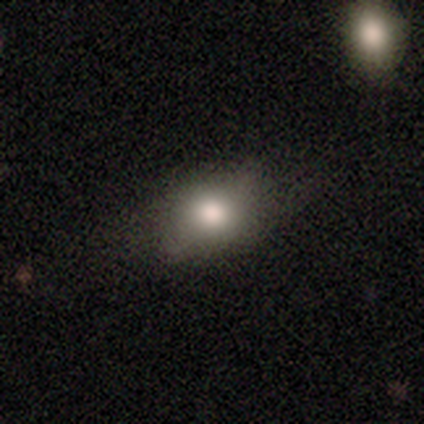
A smooth galaxy with no disk features (100%) that is in between round and cigar-shaped (80%).

Vote fractions:
- Smooth or featured? smooth: 100% / featured or disk: 0% / star or artifact: 0%
- How rounded? in between: 80% / round: 20% / cigar-shaped: 0%
- Merging? none: 100% / minor disturbance: 0% / major disturbance: 0% / merger: 0%